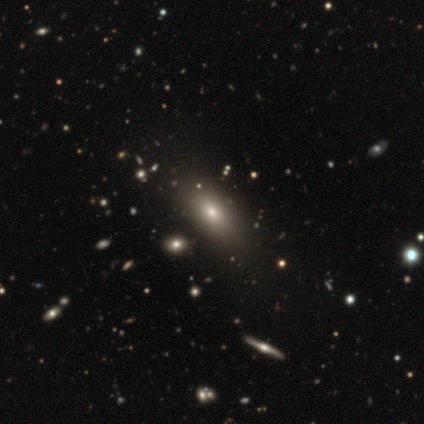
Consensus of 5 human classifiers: A smooth galaxy with no disk features (60%) that is in between round and cigar-shaped (100%). Merging: none (100%).